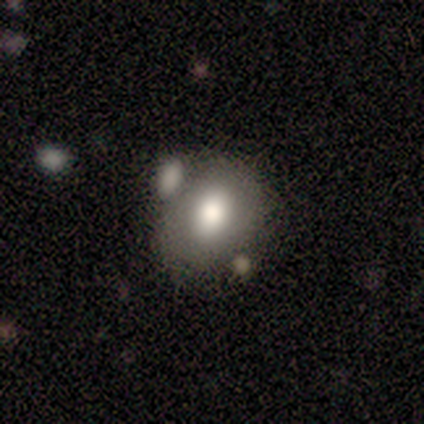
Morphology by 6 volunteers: smooth 50%, featured or disk 33%, star or artifact 17%. Down the decision tree: how rounded — in between (67%); merging — none (80%).